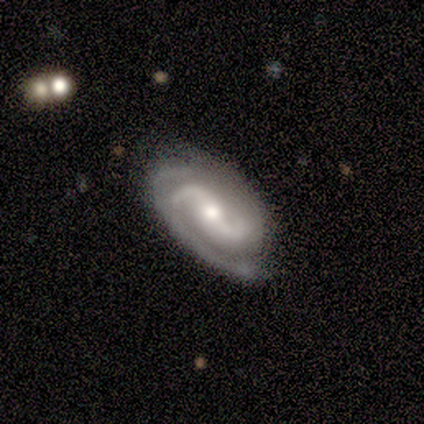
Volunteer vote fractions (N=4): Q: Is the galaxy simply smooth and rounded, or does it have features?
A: featured or disk — 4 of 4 (100%).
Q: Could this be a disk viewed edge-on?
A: no — 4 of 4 (100%).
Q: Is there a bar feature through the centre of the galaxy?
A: weak — 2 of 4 (50%).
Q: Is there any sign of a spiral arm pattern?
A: yes — 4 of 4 (100%).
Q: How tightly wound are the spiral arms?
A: medium — 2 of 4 (50%, tied with loose).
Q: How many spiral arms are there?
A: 2 — 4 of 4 (100%).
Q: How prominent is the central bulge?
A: small — 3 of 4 (75%).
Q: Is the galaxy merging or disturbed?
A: none — 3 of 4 (75%).